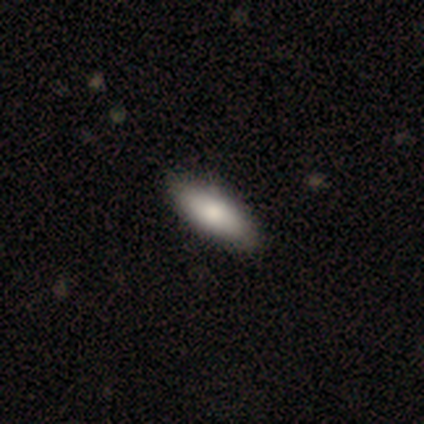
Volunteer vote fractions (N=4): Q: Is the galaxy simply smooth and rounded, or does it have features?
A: smooth — 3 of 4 (75%).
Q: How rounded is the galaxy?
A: in between — 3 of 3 (100%).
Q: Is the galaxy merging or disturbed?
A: none — 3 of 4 (75%).